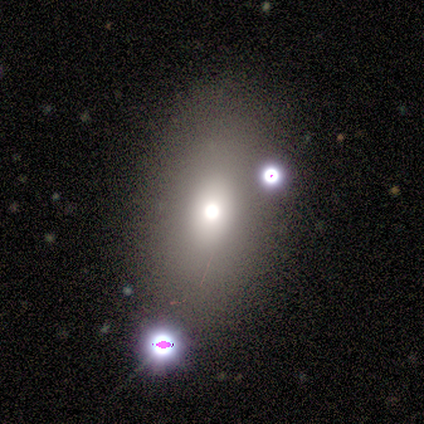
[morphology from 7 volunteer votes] This is marginally a smooth galaxy (43%, tied with featured or disk). How rounded: likely in between (67%). Merging: possibly none (50%).